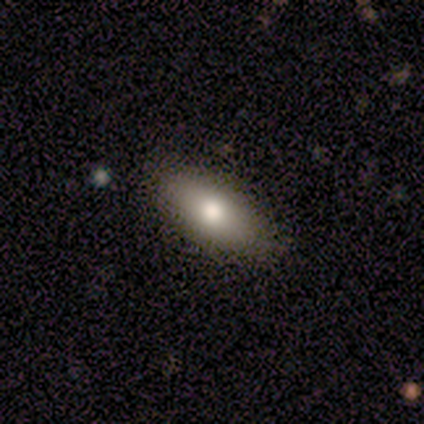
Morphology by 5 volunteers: smooth_or_featured: smooth (p=1.00)
how_rounded: in between (p=1.00)
merging: none (p=0.80) [alt: minor disturbance p=0.20]